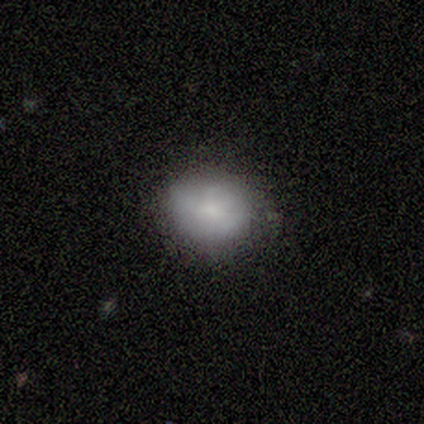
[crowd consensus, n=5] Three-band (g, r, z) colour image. It shows a featured or disk galaxy (60%) with no bar (100%), no spiral arms (67%) and a small central bulge (67%). Merging: none (80%).